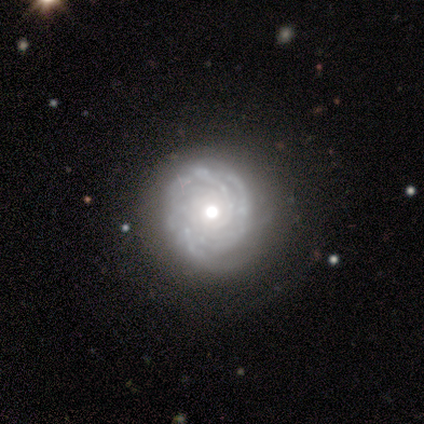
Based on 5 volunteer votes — Volunteers were most divided on "spiral arm count" (3-way tie): 3: 33%, more than 4: 33%, can't tell: 33%, 1: 0%, 2: 0%, 4: 0%. More confident: edge-on disk — no (100%); bar — no (100%); spiral arms — yes (100%); spiral winding — tight (100%); merging — none (80%); bulge size — moderate (67%); smooth or featured — featured or disk (60%).